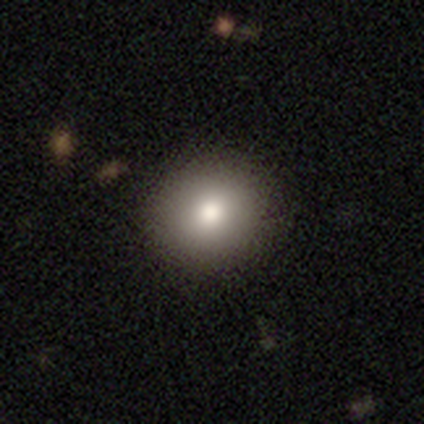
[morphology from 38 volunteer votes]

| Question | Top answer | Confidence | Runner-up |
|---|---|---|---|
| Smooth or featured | smooth | 89% | star or artifact (8%) |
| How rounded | round | 74% | in between (26%) |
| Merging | none | 100% | — |